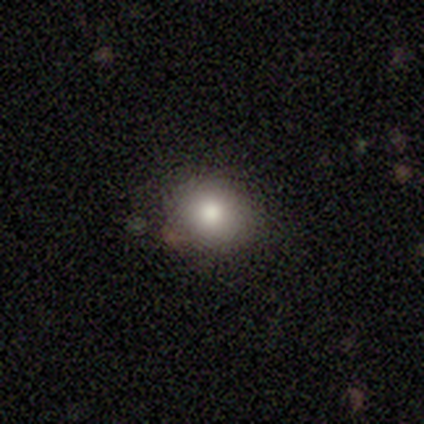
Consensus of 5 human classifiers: smooth 100%, featured or disk 0%, star or artifact 0%. Down the decision tree: how rounded — round (100%); merging — none (100%).